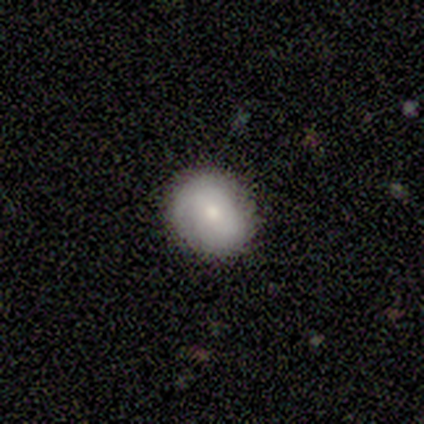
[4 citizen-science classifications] smooth 50%, featured or disk 25%, star or artifact 25%. Down the decision tree: how rounded — round (100%); merging — none (67%).